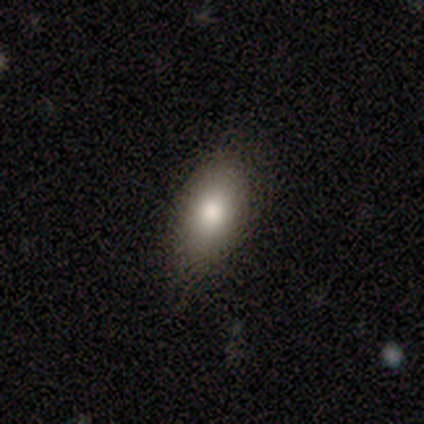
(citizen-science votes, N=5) Volunteers were most divided on "merging": none: 60%, minor disturbance: 40%, major disturbance: 0%, merger: 0%. More confident: smooth or featured — smooth (100%); how rounded — in between (100%).